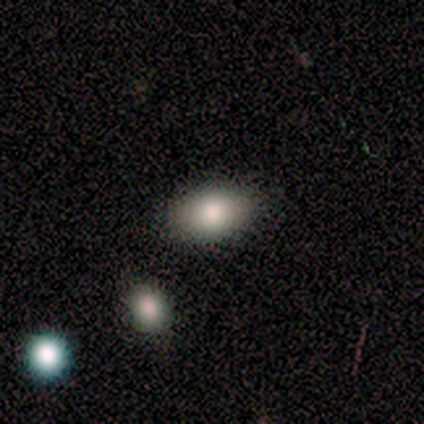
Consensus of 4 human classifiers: A smooth galaxy with no disk features (100%) that is in between round and cigar-shaped (100%).

Vote fractions:
- Smooth or featured? smooth: 100% / featured or disk: 0% / star or artifact: 0%
- How rounded? in between: 100% / round: 0% / cigar-shaped: 0%
- Merging? none: 75% / minor disturbance: 25% / major disturbance: 0% / merger: 0%